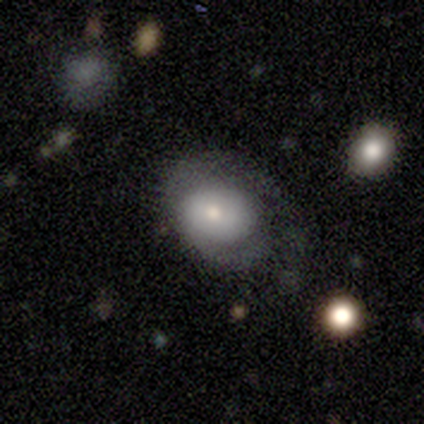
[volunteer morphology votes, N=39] Q: Smooth or featured?
A: featured or disk (64%); runner-up: smooth (33%)
Q: Edge-on disk?
A: no (92%); runner-up: yes (8%)
Q: Bar?
A: no (74%); runner-up: weak (26%)
Q: Spiral arms?
A: yes (70%); runner-up: no (30%)
Q: Spiral winding?
A: tight (56%); runner-up: medium (25%)
Q: Spiral arm count?
A: 1 (56%); runner-up: 2 (25%)
Q: Bulge size?
A: moderate (65%); runner-up: small (30%)
Q: Merging?
A: none (34%); runner-up: major disturbance (32%)